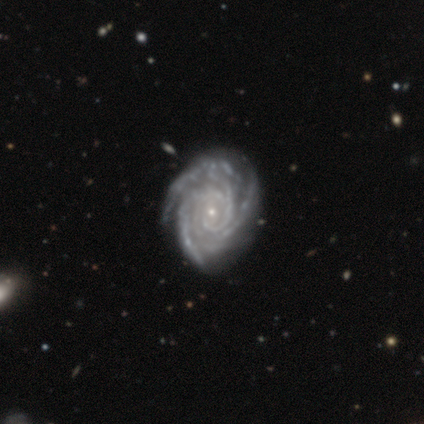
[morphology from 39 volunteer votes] This appears to be a featured or disk galaxy (92%) with no bar (72%), 3 (37%) tight (89%) spiral arms (97%) and a small central bulge (89%). Merging: none (70%).